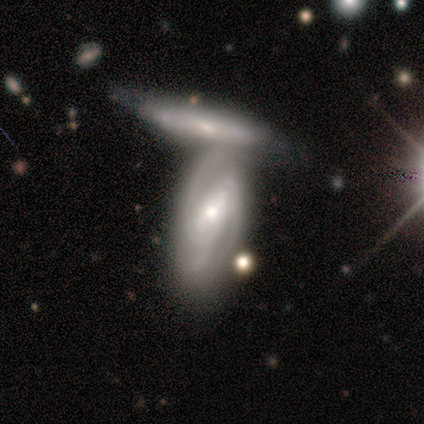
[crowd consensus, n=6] A featured or disk galaxy (100%) with a strong bar (50%), 2 (83%) tight (50%, tied with medium) spiral arms (100%) and a small central bulge (67%). Merging: minor disturbance (50%).